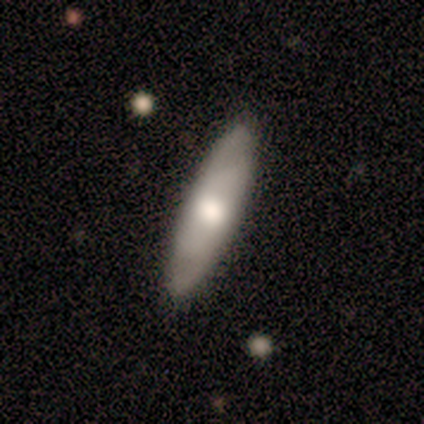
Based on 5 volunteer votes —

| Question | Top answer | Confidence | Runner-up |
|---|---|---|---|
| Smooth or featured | featured or disk | 60% | smooth (40%) |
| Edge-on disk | no | 67% | yes (33%) |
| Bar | no | 100% | — |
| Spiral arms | yes | 100% | — |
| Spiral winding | tight | 100% | — |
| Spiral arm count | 4 | 50% | tied: can't tell (50%) |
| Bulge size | moderate | 50% | tied: small (50%) |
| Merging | none | 100% | — |